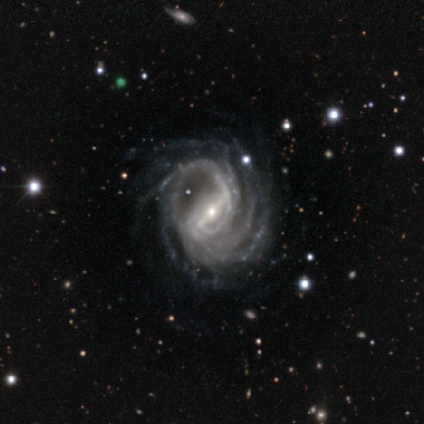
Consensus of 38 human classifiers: Smooth or featured?
  - featured or disk: 95% *
  - star or artifact: 5%
  - smooth: 0%
Edge-on disk?
  - no: 97% *
  - yes: 3%
Bar?
  - strong: 77% *
  - weak: 23%
  - no: 0%
Spiral arms?
  - yes: 97% *
  - no: 3%
Spiral winding?
  - tight: 62% *
  - medium: 24%
  - loose: 15%
Spiral arm count?
  - more than 4: 44% *
  - 4: 18%
  - 2: 12%
  - 3: 12%
  - can't tell: 12%
  - 1: 3%
Bulge size?
  - small: 77% *
  - moderate: 20%
  - none: 3%
  - dominant: 0%
  - large: 0%
Merging?
  - none: 67% *
  - major disturbance: 22%
  - minor disturbance: 11%
  - merger: 0%